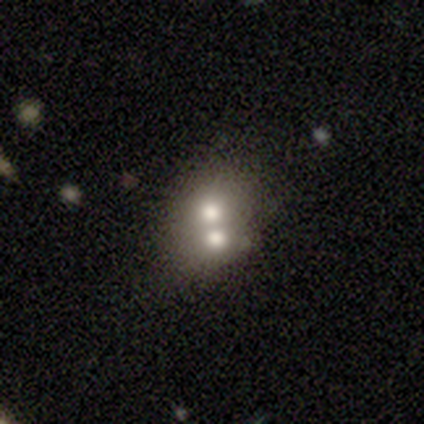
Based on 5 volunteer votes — Morphology: type=smooth (60%); roundness=round (67%); merging=merger (100%).